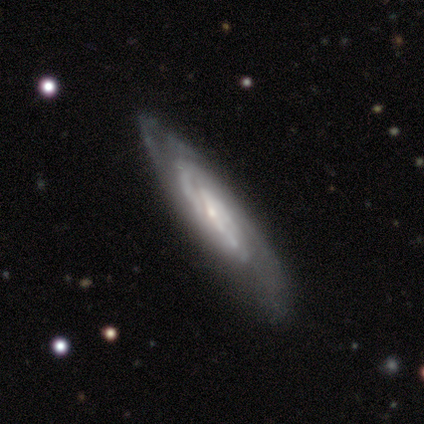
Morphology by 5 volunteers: Smooth or featured? 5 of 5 (100%) said featured or disk. Edge-on disk? 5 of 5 (100%) said no. Bar? 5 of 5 (100%) said weak. Spiral arms? 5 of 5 (100%) said yes. Spiral winding? 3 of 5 (60%) said medium. Spiral arm count? 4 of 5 (80%) said 2. Bulge size? 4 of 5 (80%) said small. Merging? 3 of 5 (60%) said none.